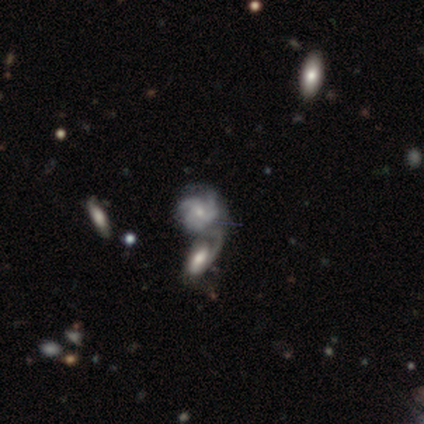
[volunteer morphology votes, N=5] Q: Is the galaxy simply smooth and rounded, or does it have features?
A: featured or disk — 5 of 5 (100%).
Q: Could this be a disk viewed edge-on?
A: no — 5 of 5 (100%).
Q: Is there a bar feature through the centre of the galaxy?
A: no — 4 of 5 (80%).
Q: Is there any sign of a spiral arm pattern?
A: yes — 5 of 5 (100%).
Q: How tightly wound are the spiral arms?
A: medium — 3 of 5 (60%).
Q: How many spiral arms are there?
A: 3 — 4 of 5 (80%).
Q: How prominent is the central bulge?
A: small — 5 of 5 (100%).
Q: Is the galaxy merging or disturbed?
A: merger — 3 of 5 (60%).